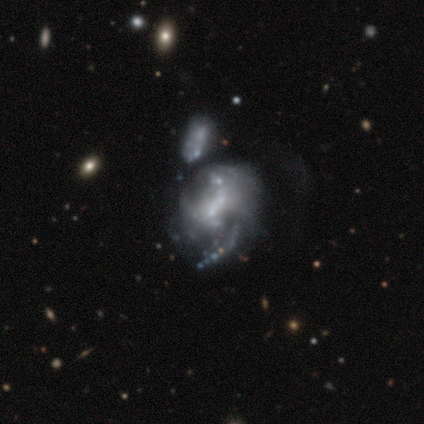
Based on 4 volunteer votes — Q: Smooth or featured?
A: featured or disk (75%); runner-up: star or artifact (25%)
Q: Edge-on disk?
A: no (100%)
Q: Bar?
A: weak (67%); runner-up: no (33%)
Q: Spiral arms?
A: yes (100%)
Q: Spiral winding?
A: loose (67%); runner-up: medium (33%)
Q: Spiral arm count?
A: 1 (33%); tied with: 2 (33%); can't tell (33%)
Q: Bulge size?
A: small (67%); runner-up: none (33%)
Q: Merging?
A: none (33%); tied with: minor disturbance (33%); major disturbance (33%)